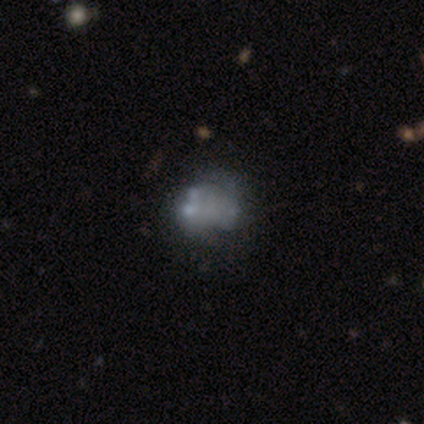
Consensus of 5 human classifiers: Morphology: type=star or artifact (60%).